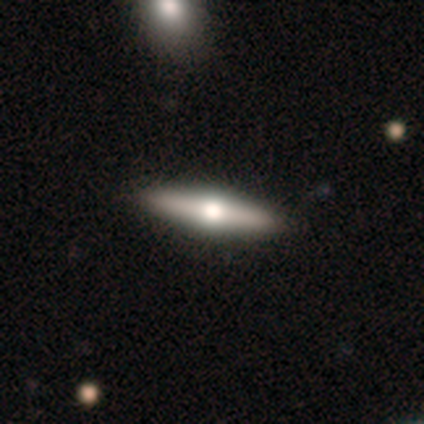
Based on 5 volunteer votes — Overall: featured or disk (40%, tied with star or artifact). Edge-on disk: yes (100%). Edge-on bulge: rounded (100%). Merging: none (100%).